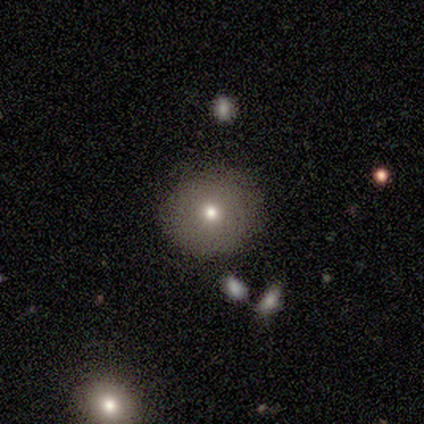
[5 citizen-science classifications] smooth_or_featured: smooth (p=0.80) [alt: featured or disk p=0.20]
how_rounded: round (p=1.00)
merging: none (p=0.80) [alt: minor disturbance p=0.20]